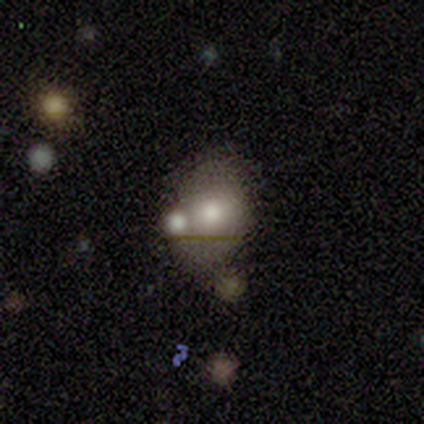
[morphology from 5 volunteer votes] smooth-or-featured: smooth: 40% (tied) | featured or disk: 40% (tied) | star or artifact: 20%
  how-rounded: round: 50% (tied) | in between: 50% (tied) | cigar-shaped: 0%
  merging: none: 50% (tied) | merger: 50% (tied) | minor disturbance: 0% | major disturbance: 0%